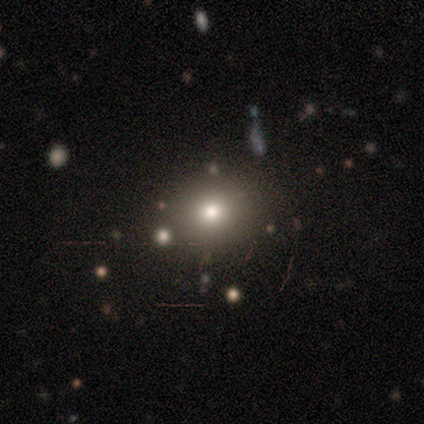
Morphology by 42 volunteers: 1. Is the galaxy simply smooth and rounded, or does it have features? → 64% smooth, 31% star or artifact, 5% featured or disk.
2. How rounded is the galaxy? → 78% round, 19% in between, 4% cigar-shaped.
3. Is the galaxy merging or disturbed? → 90% none, 7% merger, 3% minor disturbance, 0% major disturbance.